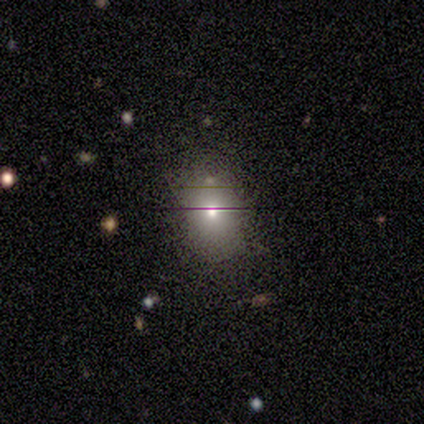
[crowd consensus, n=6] Smooth or featured? 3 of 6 (50%) said smooth. How rounded? 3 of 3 (100%) said round. Merging? 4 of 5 (80%) said none.